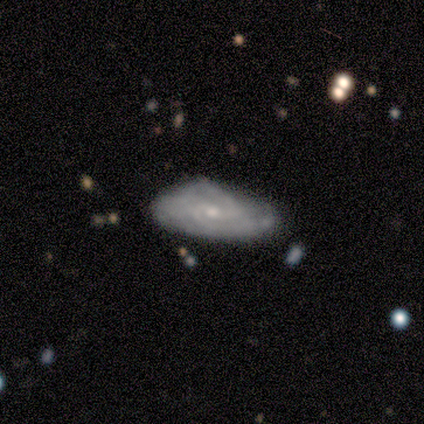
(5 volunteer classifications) featured or disk 80%, smooth 20%, star or artifact 0%. Down the decision tree: edge-on disk — no (100%); bar — no (75%); spiral arms — yes (100%); spiral arm count — can't tell (50%); spiral winding — tight (75%); bulge size — small (75%); merging — none (60%).